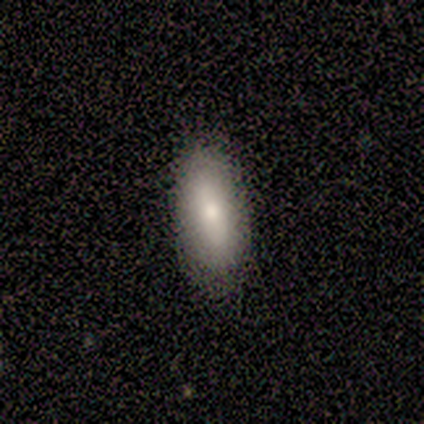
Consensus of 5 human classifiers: A smooth galaxy with no disk features (60%) that is in between round and cigar-shaped (100%). Merging: none (100%).